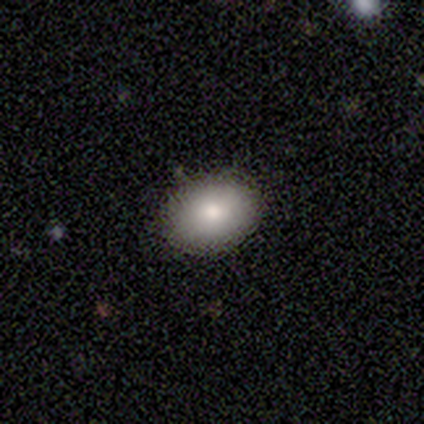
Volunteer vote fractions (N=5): Q: Smooth or featured?
A: smooth (100%)
Q: How rounded?
A: in between (80%); runner-up: round (20%)
Q: Merging?
A: none (80%); runner-up: minor disturbance (20%)